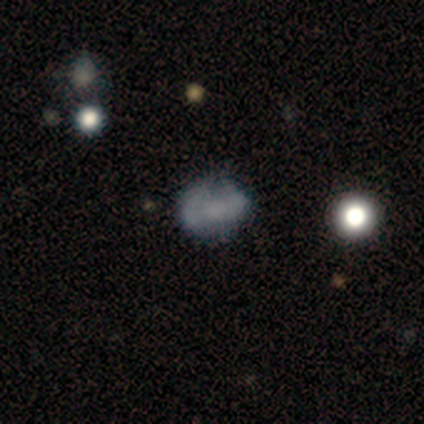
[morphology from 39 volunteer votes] Smooth or featured: smooth — 56% (featured or disk — 33%)
How rounded: round — 50% (in between — 45%)
Merging: none — 43% (minor disturbance — 37%)